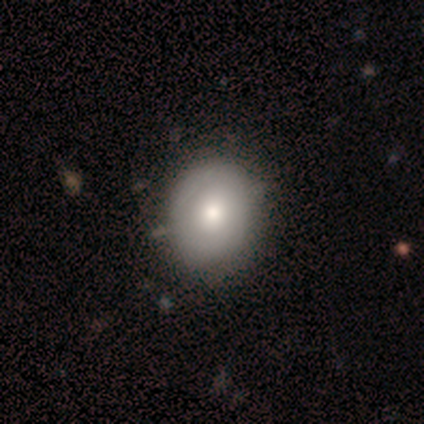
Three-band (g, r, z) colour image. It shows a smooth galaxy with no disk features (100%) that is round (80%). Merging: none (80%).